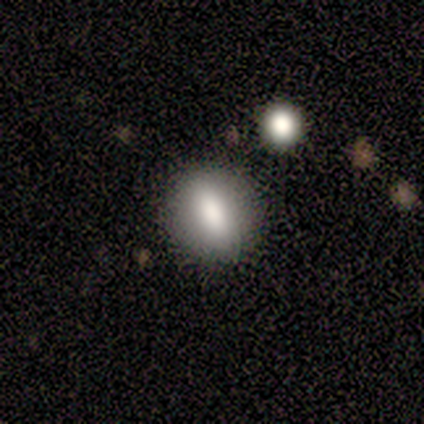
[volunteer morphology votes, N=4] smooth_or_featured: smooth (p=0.50) [alt: featured or disk p=0.25]
how_rounded: round (p=0.50) [tied with: cigar-shaped p=0.50]
merging: none (p=1.00)